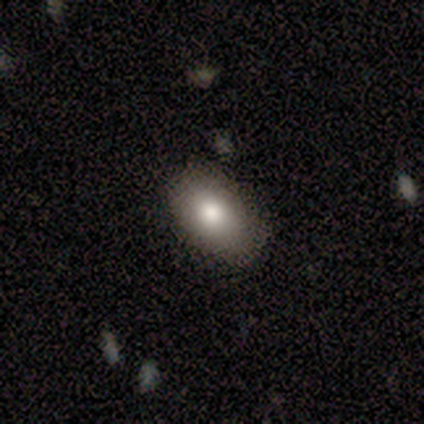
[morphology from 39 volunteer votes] Smooth or featured: smooth — 85% (featured or disk — 10%)
How rounded: in between — 88% (round — 12%)
Merging: none — 89% (minor disturbance — 11%)